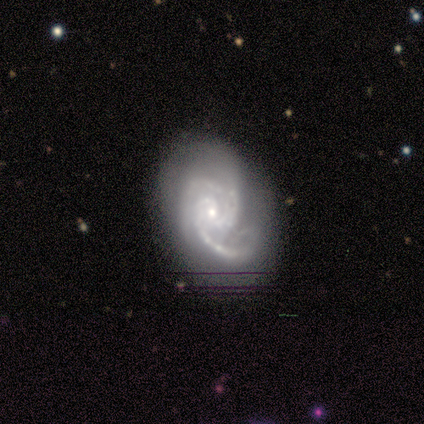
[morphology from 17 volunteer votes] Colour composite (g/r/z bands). It shows a featured or disk galaxy (88%) with no bar (60%), 2 (33%, tied with 3) medium (60%) spiral arms (100%) and a small central bulge (73%). Merging: none (62%).